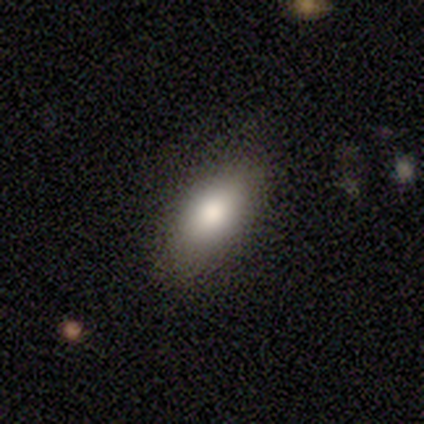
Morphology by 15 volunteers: smooth-or-featured: smooth: 87% | featured or disk: 13% | star or artifact: 0%
  how-rounded: in between: 85% | cigar-shaped: 15% | round: 0%
  merging: none: 80% | minor disturbance: 20% | major disturbance: 0% | merger: 0%